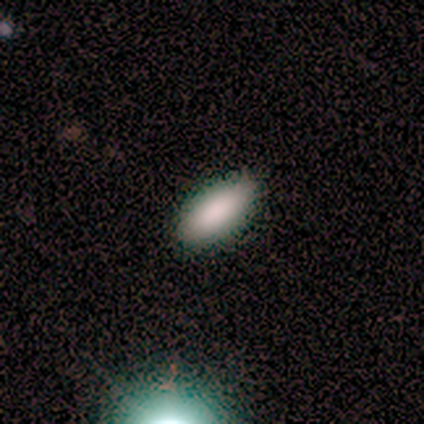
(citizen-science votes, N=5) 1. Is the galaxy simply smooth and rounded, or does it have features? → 100% smooth, 0% featured or disk, 0% star or artifact.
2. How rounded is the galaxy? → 80% in between, 20% cigar-shaped, 0% round.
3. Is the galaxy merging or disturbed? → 80% none, 20% minor disturbance, 0% major disturbance, 0% merger.